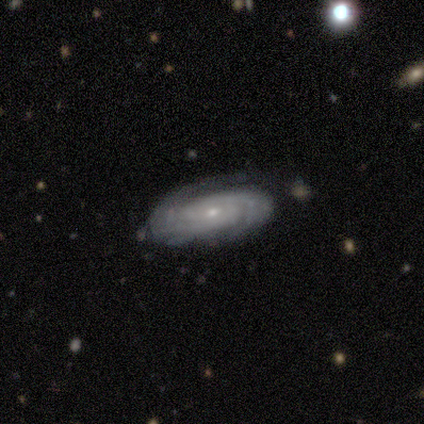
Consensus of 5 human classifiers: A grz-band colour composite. It shows a featured or disk galaxy (100%) with a weak bar (60%), 2 (80%) tight (60%) spiral arms (100%) and a small central bulge (80%). Merging: none (40%, tied with minor disturbance).